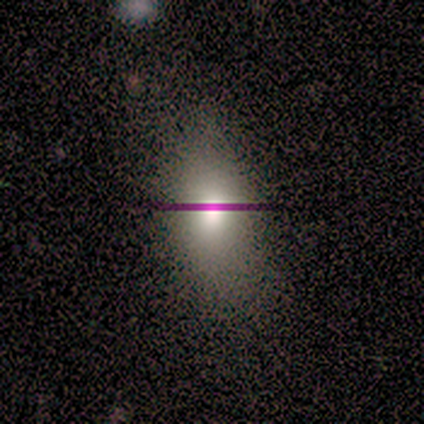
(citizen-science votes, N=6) This is clearly a smooth galaxy (100%). How rounded: clearly in between (100%). Merging: likely none (67%).